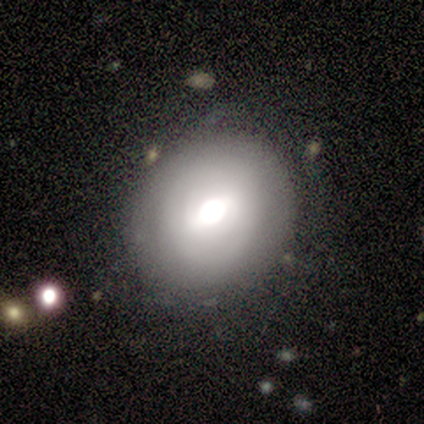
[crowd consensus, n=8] Volunteers were most divided on "how rounded": in between: 57%, round: 43%, cigar-shaped: 0%. More confident: smooth or featured — smooth (88%); merging — none (75%).